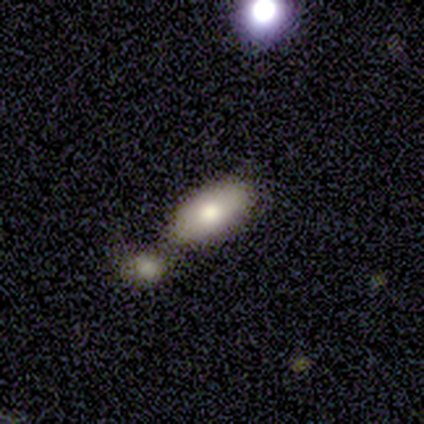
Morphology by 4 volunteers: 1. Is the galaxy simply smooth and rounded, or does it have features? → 100% smooth, 0% featured or disk, 0% star or artifact.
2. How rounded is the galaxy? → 100% in between, 0% round, 0% cigar-shaped.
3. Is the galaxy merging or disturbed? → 75% merger, 25% minor disturbance, 0% none, 0% major disturbance.